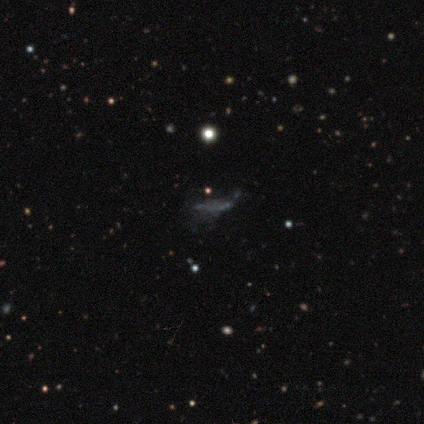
Q: Smooth or featured?
A: star or artifact (100%)